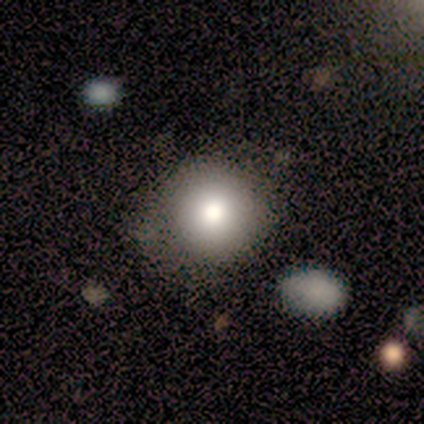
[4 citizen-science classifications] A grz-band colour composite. It shows a smooth galaxy with no disk features (75%) that is round (67%). Merging: none (50%, tied with minor disturbance).